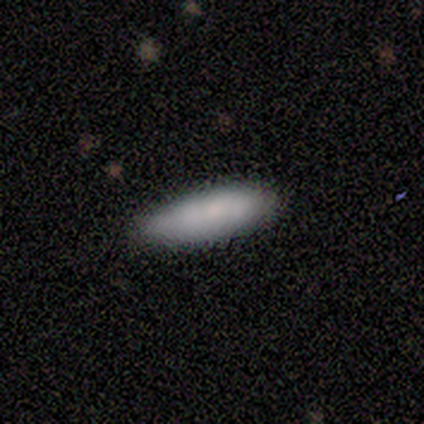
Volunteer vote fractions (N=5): smooth-or-featured: smooth: 80% | star or artifact: 20% | featured or disk: 0%
  how-rounded: cigar-shaped: 100% | round: 0% | in between: 0%
  merging: none: 50% (tied) | minor disturbance: 50% (tied) | major disturbance: 0% | merger: 0%